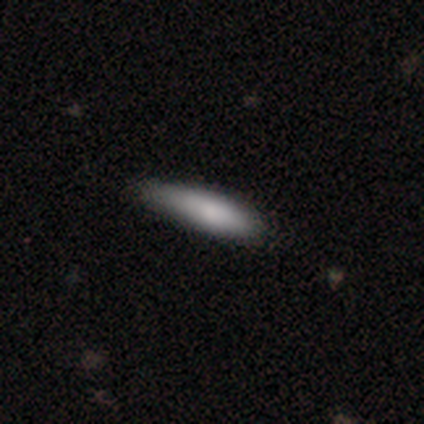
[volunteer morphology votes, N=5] A smooth galaxy with no disk features (60%) that is cigar-shaped (67%).

Vote fractions:
- Smooth or featured? smooth: 60% / featured or disk: 40% / star or artifact: 0%
- How rounded? cigar-shaped: 67% / in between: 33% / round: 0%
- Merging? none: 60% / minor disturbance: 40% / major disturbance: 0% / merger: 0%